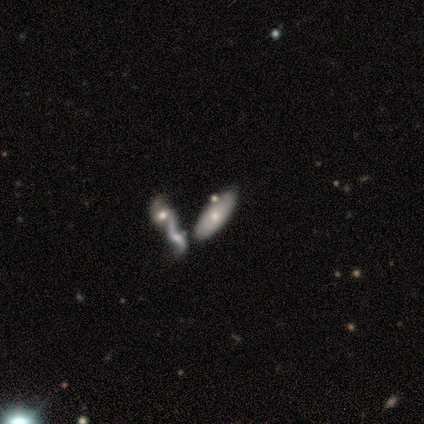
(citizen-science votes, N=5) Q: Smooth or featured?
A: smooth (60%); runner-up: featured or disk (20%)
Q: How rounded?
A: in between (100%)
Q: Merging?
A: merger (50%); runner-up: none (25%)